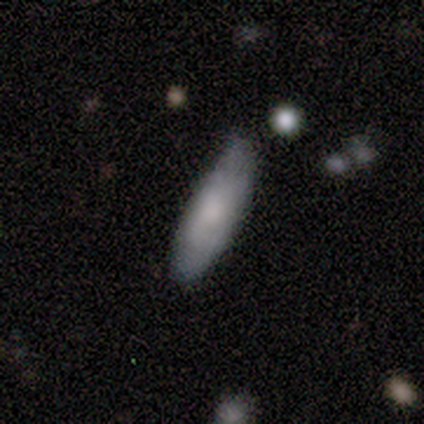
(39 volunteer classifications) Smooth or featured? 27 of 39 (69%) said smooth. How rounded? 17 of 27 (63%) said cigar-shaped. Merging? 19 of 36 (53%) said none.